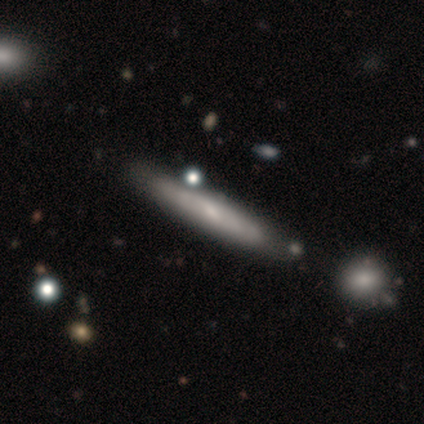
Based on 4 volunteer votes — A smooth galaxy with no disk features (75%) that is cigar-shaped (100%). Merging: none (100%).